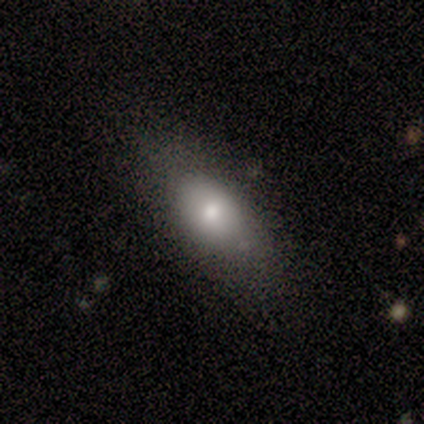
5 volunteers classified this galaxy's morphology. Q: Smooth or featured?
A: smooth (60%); runner-up: featured or disk (40%)
Q: How rounded?
A: in between (100%)
Q: Merging?
A: none (100%)